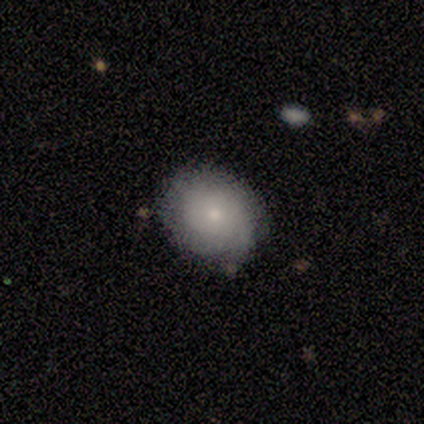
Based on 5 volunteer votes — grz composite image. It shows a smooth galaxy with no disk features (80%) that is round (75%). Merging: none (60%).